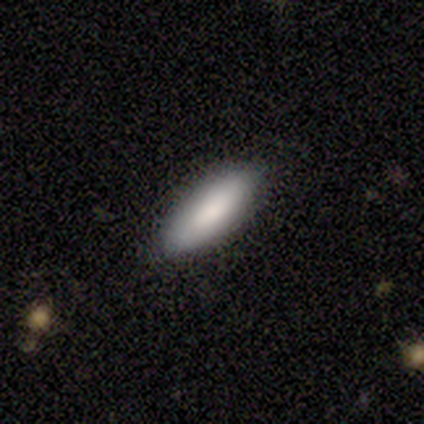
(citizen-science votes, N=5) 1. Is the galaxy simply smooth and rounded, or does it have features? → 60% smooth, 20% featured or disk, 20% star or artifact.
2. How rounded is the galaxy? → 67% in between, 33% cigar-shaped, 0% round.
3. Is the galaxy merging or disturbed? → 75% none, 25% minor disturbance, 0% major disturbance, 0% merger.